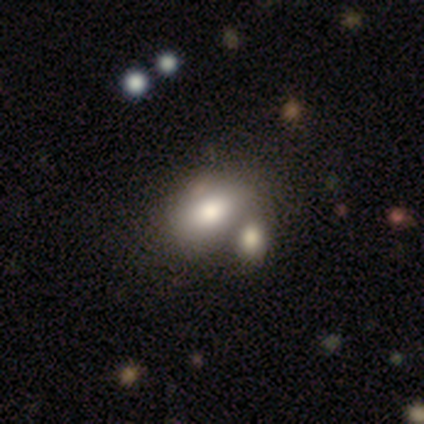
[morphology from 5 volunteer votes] Smooth or featured?
  - smooth: 80% *
  - featured or disk: 20%
  - star or artifact: 0%
How rounded?
  - in between: 100% *
  - round: 0%
  - cigar-shaped: 0%
Merging?
  - none: 100% *
  - minor disturbance: 0%
  - major disturbance: 0%
  - merger: 0%